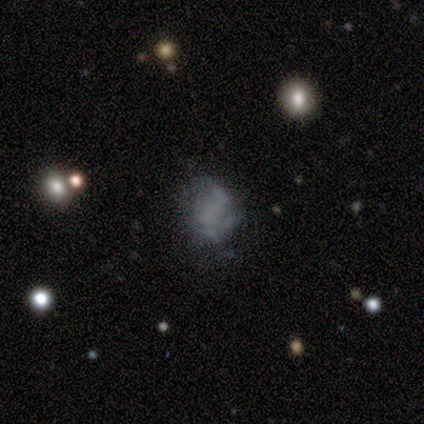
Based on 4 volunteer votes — Q: Smooth or featured?
A: smooth (50%); tied with: featured or disk (50%)
Q: How rounded?
A: round (50%); tied with: in between (50%)
Q: Merging?
A: none (50%); tied with: major disturbance (50%)